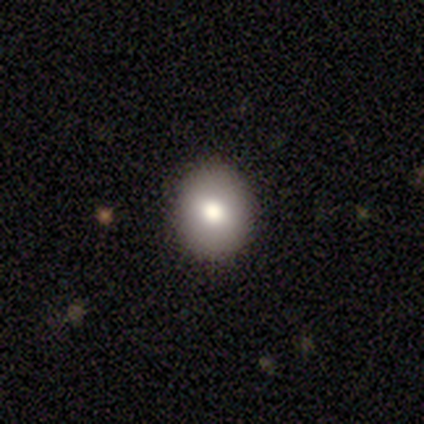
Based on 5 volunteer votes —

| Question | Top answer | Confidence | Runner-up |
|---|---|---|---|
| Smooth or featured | smooth | 60% | featured or disk (40%) |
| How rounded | round | 67% | in between (33%) |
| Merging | none | 100% | — |